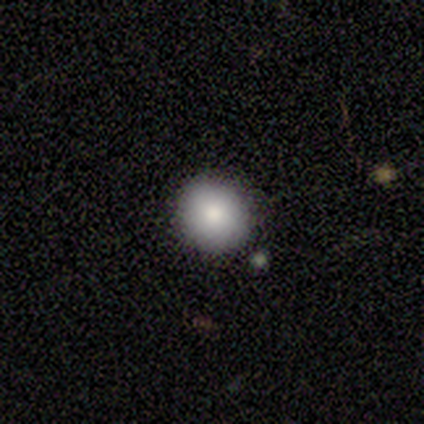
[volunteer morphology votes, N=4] A smooth galaxy with no disk features (100%) that is round (75%). Merging: none (75%).